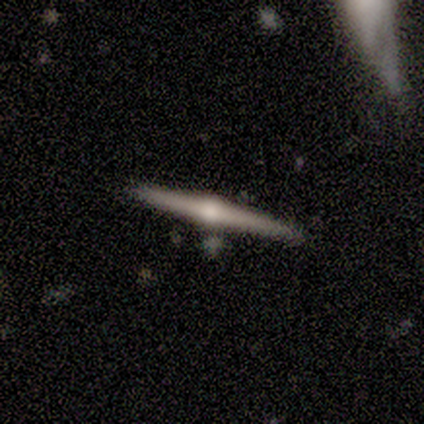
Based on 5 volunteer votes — featured or disk 60%, smooth 40%, star or artifact 0%. Down the decision tree: edge-on disk — yes (100%); edge-on bulge — rounded (100%); merging — none (100%).